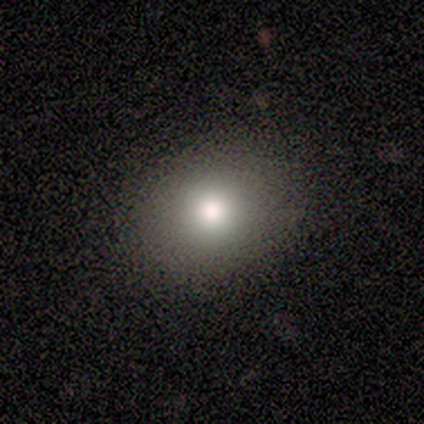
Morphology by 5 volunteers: smooth-or-featured: smooth: 100% | featured or disk: 0% | star or artifact: 0%
  how-rounded: round: 100% | in between: 0% | cigar-shaped: 0%
  merging: none: 80% | major disturbance: 20% | minor disturbance: 0% | merger: 0%